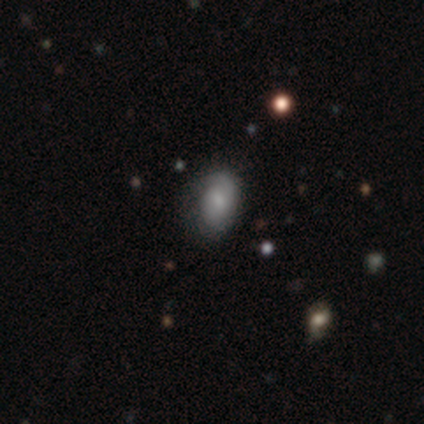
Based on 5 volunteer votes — This appears to be a smooth galaxy with no disk features (60%) that is in between round and cigar-shaped (67%). Merging: none (100%).